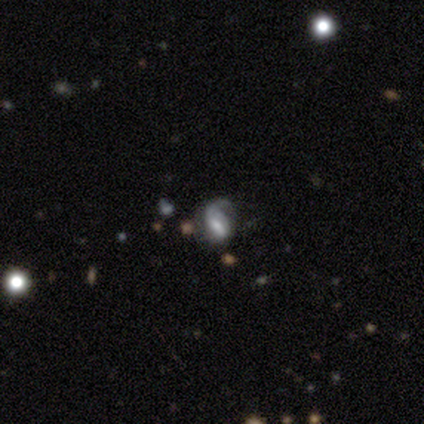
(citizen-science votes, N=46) A featured or disk galaxy (67%) with a weak bar (41%), 1 (77%) medium (50%) spiral arms (76%) and a small central bulge (31%).

Vote fractions:
- Smooth or featured? featured or disk: 67% / smooth: 30% / star or artifact: 2%
- Edge-on disk? no: 94% / yes: 6%
- Bar? weak: 41% / strong: 31% / no: 28%
- Spiral arms? yes: 76% / no: 24%
- Spiral winding? medium: 50% / loose: 41% / tight: 9%
- Spiral arm count? 1: 77% / can't tell: 14% / 2: 9% / 3: 0% / 4: 0% / more than 4: 0%
- Bulge size? small: 31% / large: 28% / none: 21% / moderate: 17% / dominant: 3%
- Merging? major disturbance: 42% / none: 27% / minor disturbance: 27% / merger: 4%